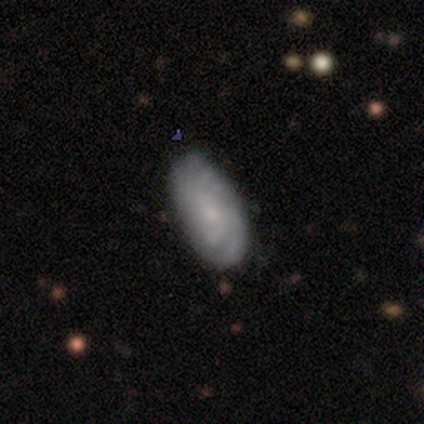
Morphology: type=featured or disk (59%); edge-on=no (100%); bar=no (83%); spiral arms=yes (87%); winding=tight (65%); arm count=can't tell (65%); bulge=small (48%); merging=none (49%).